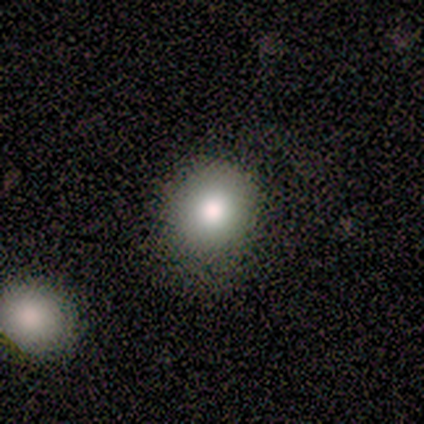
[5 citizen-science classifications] A smooth galaxy with no disk features (60%) that is round (100%). Merging: none (75%).